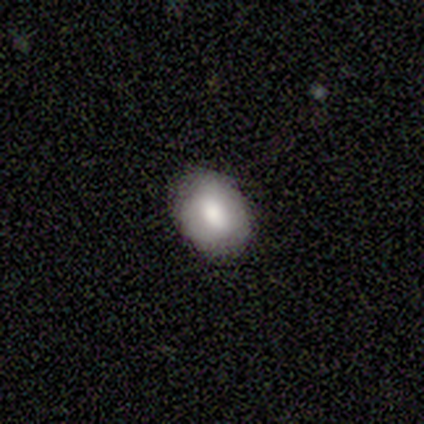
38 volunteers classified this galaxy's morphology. smooth 82%, featured or disk 13%, star or artifact 5%. Down the decision tree: how rounded — in between (71%); merging — none (83%).